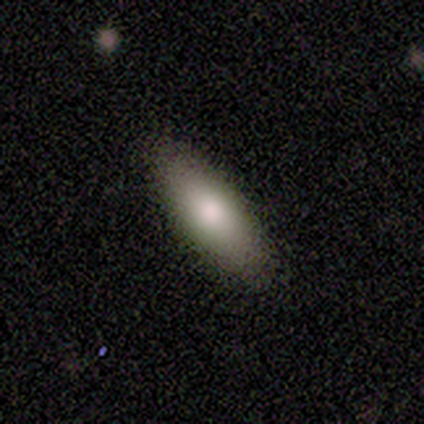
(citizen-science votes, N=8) Smooth or featured?
  - smooth: 100% *
  - featured or disk: 0%
  - star or artifact: 0%
How rounded?
  - in between: 75% *
  - cigar-shaped: 25%
  - round: 0%
Merging?
  - none: 100% *
  - minor disturbance: 0%
  - major disturbance: 0%
  - merger: 0%